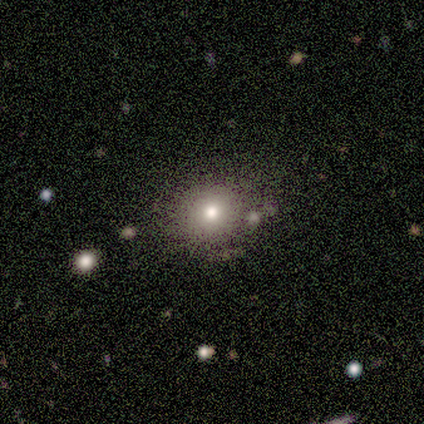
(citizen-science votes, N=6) Smooth or featured: smooth — 83% (star or artifact — 17%)
How rounded: round — 60% (in between — 40%)
Merging: none — 100%